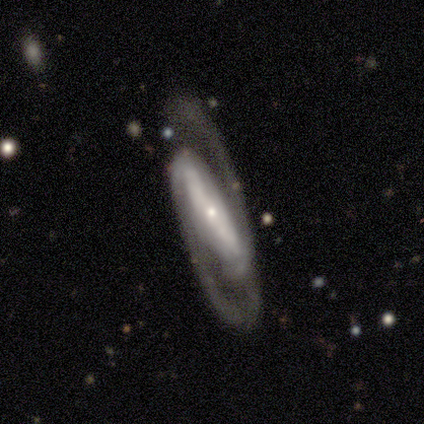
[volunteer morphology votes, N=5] Smooth or featured? 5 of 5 (100%) said featured or disk. Edge-on disk? 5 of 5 (100%) said no. Bar? 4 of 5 (80%) said strong. Spiral arms? 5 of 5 (100%) said yes. Spiral winding? 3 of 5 (60%) said loose. Spiral arm count? 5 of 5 (100%) said 2. Bulge size? 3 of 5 (60%) said small. Merging? 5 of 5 (100%) said none.